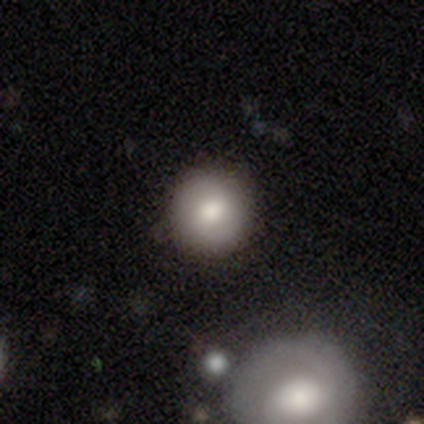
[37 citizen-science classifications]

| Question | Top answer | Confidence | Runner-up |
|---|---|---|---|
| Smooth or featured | smooth | 68% | featured or disk (22%) |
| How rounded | round | 96% | in between (4%) |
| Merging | none | 85% | minor disturbance (9%) |